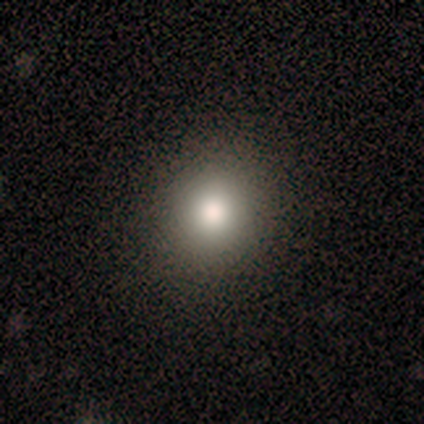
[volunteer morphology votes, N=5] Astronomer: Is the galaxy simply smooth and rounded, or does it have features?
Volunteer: smooth — 60%.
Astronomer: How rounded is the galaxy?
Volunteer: round — 100%.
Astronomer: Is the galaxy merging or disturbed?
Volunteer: none — 100%.